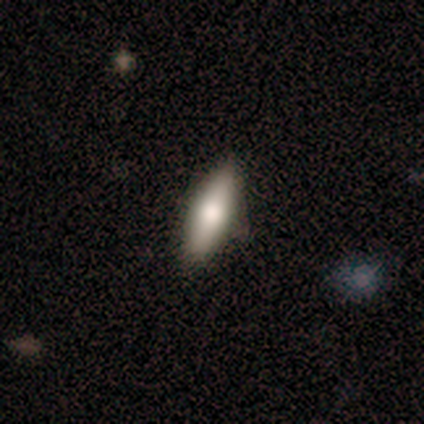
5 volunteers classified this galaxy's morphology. Smooth or featured? smooth (80%)
How rounded? in between (50%, tied with cigar-shaped)
Merging? none (60%)